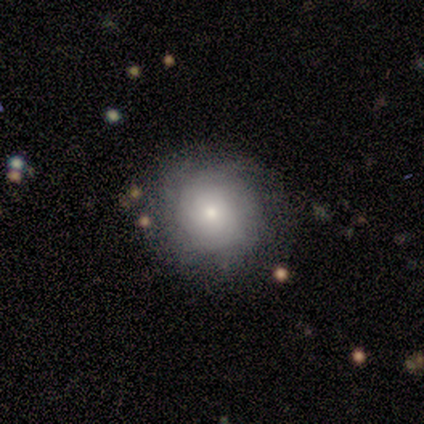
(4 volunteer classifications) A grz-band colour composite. It shows a smooth galaxy with no disk features (75%) that is round (67%). Merging: none (100%).